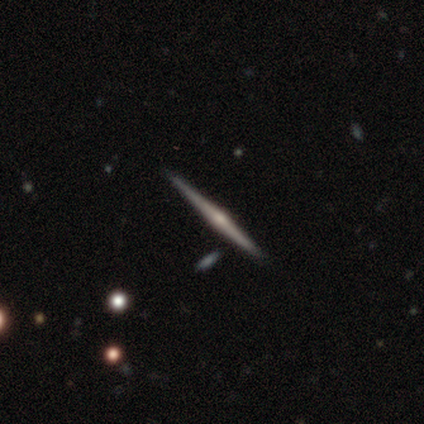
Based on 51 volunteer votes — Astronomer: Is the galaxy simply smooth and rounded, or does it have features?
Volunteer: featured or disk — 76%.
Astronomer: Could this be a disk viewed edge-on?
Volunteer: yes — 100%.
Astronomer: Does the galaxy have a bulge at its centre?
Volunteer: rounded — 92%.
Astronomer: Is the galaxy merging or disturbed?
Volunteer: none — 87%.